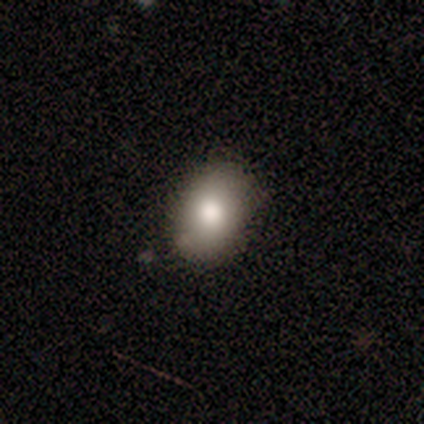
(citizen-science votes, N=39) A smooth galaxy with no disk features (87%) that is in between round and cigar-shaped (59%).

Vote fractions:
- Smooth or featured? smooth: 87% / featured or disk: 8% / star or artifact: 5%
- How rounded? in between: 59% / round: 38% / cigar-shaped: 3%
- Merging? none: 86% / minor disturbance: 11% / major disturbance: 3% / merger: 0%